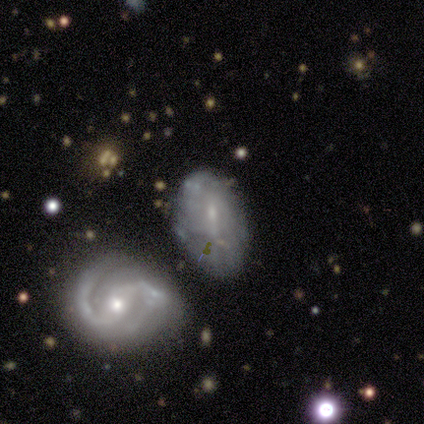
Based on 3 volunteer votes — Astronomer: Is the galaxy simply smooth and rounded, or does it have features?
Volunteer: smooth — 33%, tied with featured or disk and star or artifact at 33%.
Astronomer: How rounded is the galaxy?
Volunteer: in between — 100%.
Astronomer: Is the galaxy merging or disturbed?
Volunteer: none — 100%.